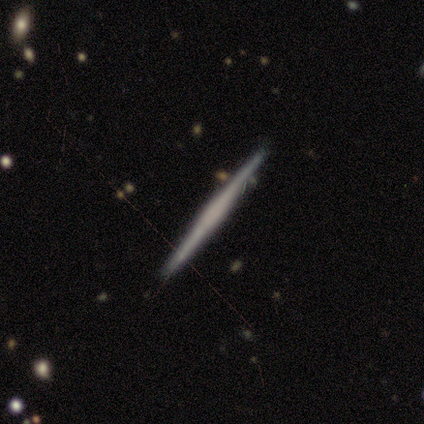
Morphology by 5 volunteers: Smooth or featured?
  - featured or disk: 100% *
  - smooth: 0%
  - star or artifact: 0%
Edge-on disk?
  - yes: 100% *
  - no: 0%
Edge-on bulge?
  - boxy: 40% * (tied)
  - rounded: 40% * (tied)
  - none: 20%
Merging?
  - none: 100% *
  - minor disturbance: 0%
  - major disturbance: 0%
  - merger: 0%